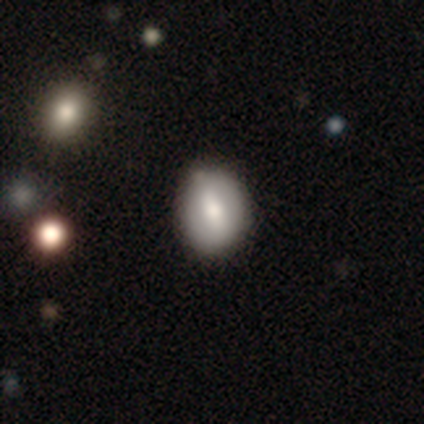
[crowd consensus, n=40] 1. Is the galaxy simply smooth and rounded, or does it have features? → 57% smooth, 42% featured or disk, 0% star or artifact.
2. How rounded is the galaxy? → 52% round, 48% in between, 0% cigar-shaped.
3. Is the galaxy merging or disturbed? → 68% none, 12% minor disturbance, 5% merger, 0% major disturbance.